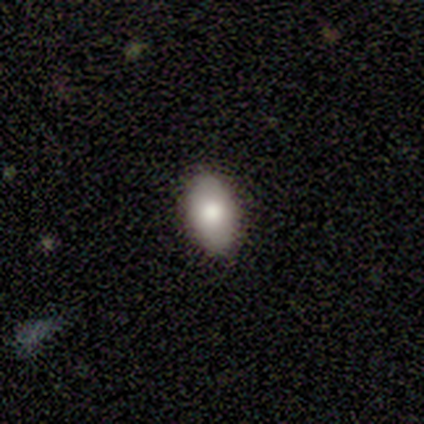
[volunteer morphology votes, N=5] smooth_or_featured: smooth (p=1.00)
how_rounded: in between (p=1.00)
merging: none (p=1.00)